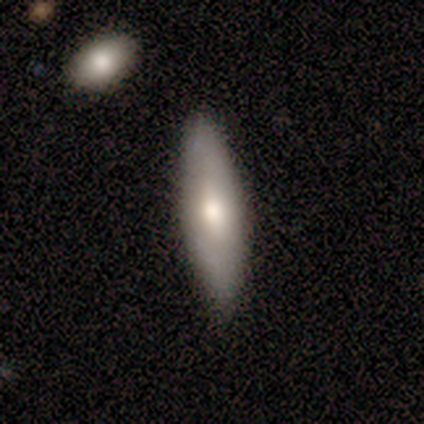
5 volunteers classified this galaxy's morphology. This is clearly a featured or disk galaxy (80%). It is likely viewed edge-on (75%). Edge-on bulge: likely rounded (67%). Merging: clearly none (100%).